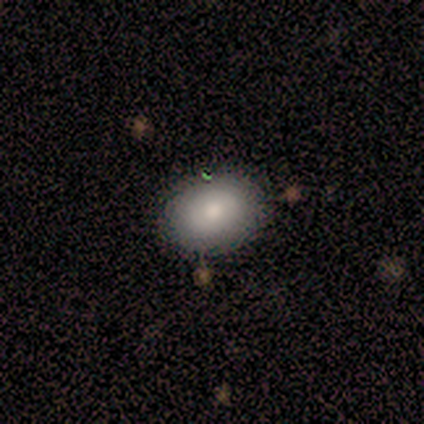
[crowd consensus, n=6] Overall: smooth (100%). How rounded: round (67%; in between 33%). Merging: none (83%).